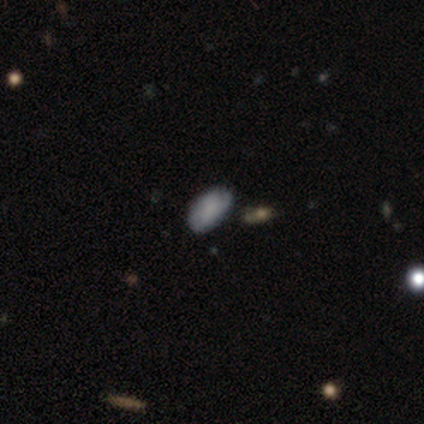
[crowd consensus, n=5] Q: Smooth or featured?
A: smooth (100%)
Q: How rounded?
A: in between (80%); runner-up: cigar-shaped (20%)
Q: Merging?
A: none (60%); runner-up: minor disturbance (40%)